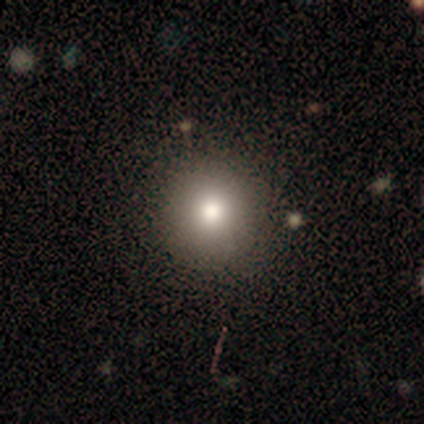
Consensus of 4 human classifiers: smooth_or_featured: smooth (p=0.75) [alt: star or artifact p=0.25]
how_rounded: round (p=1.00)
merging: none (p=1.00)